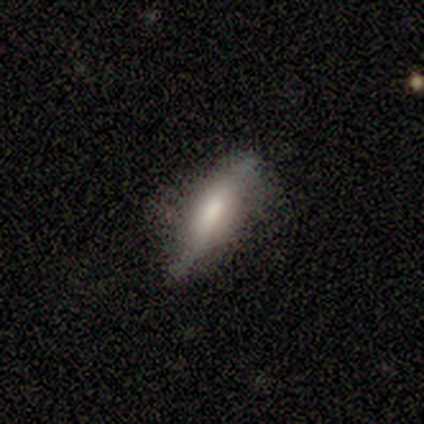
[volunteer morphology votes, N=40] Smooth or featured: featured or disk — 50% (smooth — 45%)
Edge-on disk: yes — 75% (no — 25%)
Edge-on bulge: rounded — 60% (boxy — 33%)
Merging: none — 71% (minor disturbance — 26%)